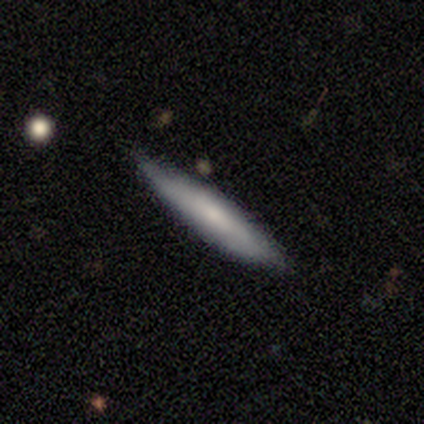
Q: Smooth or featured?
A: smooth (100%)
Q: How rounded?
A: cigar-shaped (100%)
Q: Merging?
A: none (75%); runner-up: minor disturbance (25%)